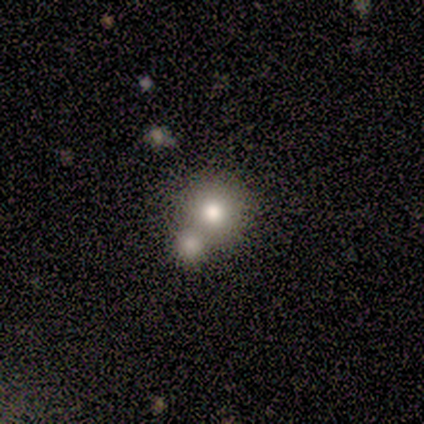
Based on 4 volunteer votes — Morphology: type=smooth (75%); roundness=round (100%); merging=none (67%).